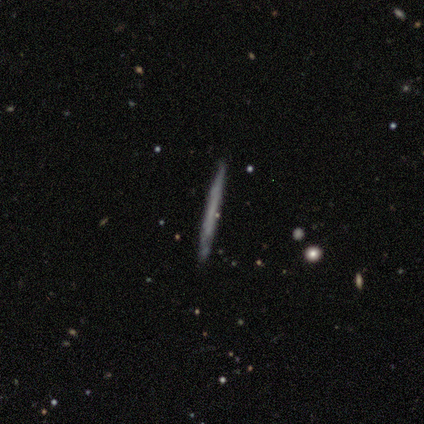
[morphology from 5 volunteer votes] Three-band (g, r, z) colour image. It shows a smooth galaxy with no disk features (80%) that is cigar-shaped (100%). Merging: none (80%).